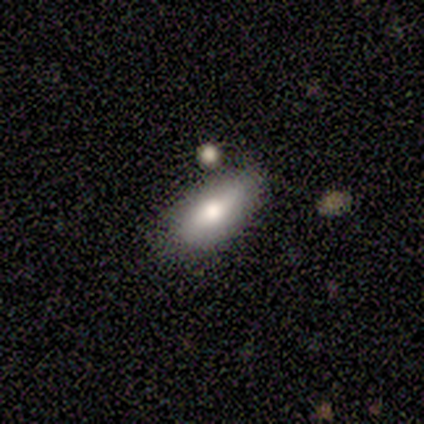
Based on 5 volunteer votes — Q: Smooth or featured?
A: smooth (60%); runner-up: featured or disk (40%)
Q: How rounded?
A: in between (67%); runner-up: cigar-shaped (33%)
Q: Merging?
A: none (60%); runner-up: minor disturbance (40%)